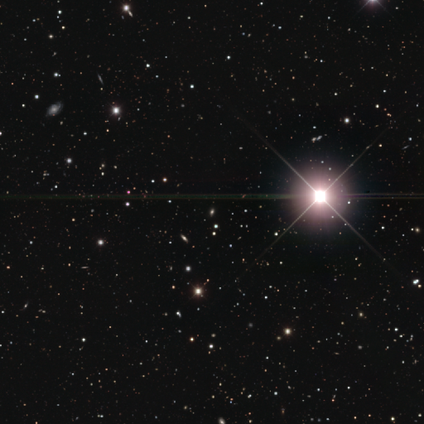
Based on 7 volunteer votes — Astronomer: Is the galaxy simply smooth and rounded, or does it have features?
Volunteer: star or artifact — 86%.